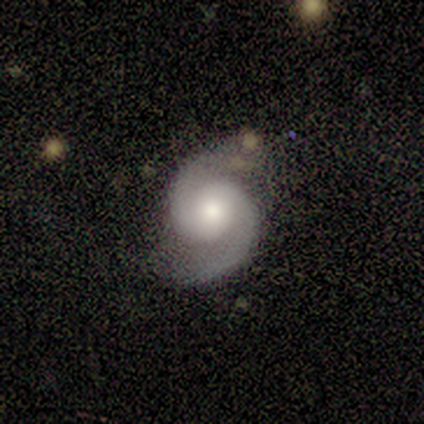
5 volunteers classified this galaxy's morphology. Q: Smooth or featured?
A: featured or disk (100%)
Q: Edge-on disk?
A: no (100%)
Q: Bar?
A: no (80%); runner-up: weak (20%)
Q: Spiral arms?
A: yes (100%)
Q: Spiral winding?
A: medium (60%); runner-up: tight (40%)
Q: Spiral arm count?
A: 2 (100%)
Q: Bulge size?
A: moderate (60%); runner-up: small (40%)
Q: Merging?
A: none (80%); runner-up: minor disturbance (20%)